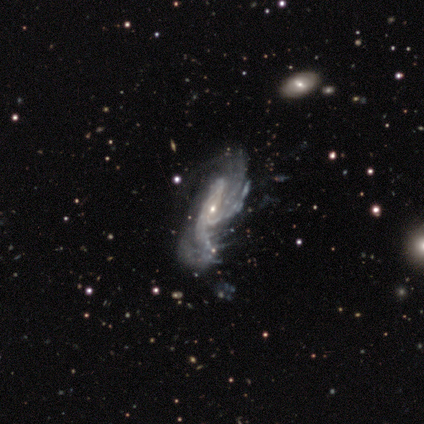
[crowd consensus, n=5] featured or disk 100%, smooth 0%, star or artifact 0%. Down the decision tree: edge-on disk — no (100%); bar — no (60%); spiral arms — yes (100%); spiral arm count — can't tell (40%); spiral winding — tight (60%); bulge size — small (60%); merging — none (40%, tied with minor disturbance).